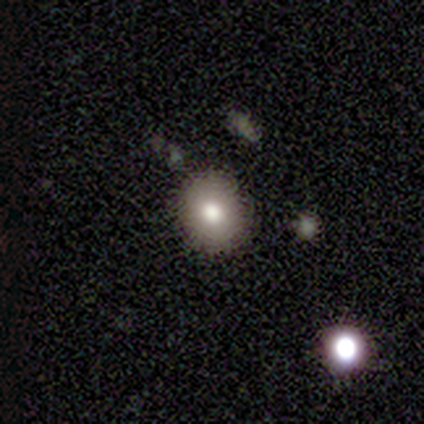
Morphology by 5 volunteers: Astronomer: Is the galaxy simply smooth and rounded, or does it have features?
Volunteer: smooth — 100%.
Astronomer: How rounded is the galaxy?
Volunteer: round — 100%.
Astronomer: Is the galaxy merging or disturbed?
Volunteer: none — 100%.